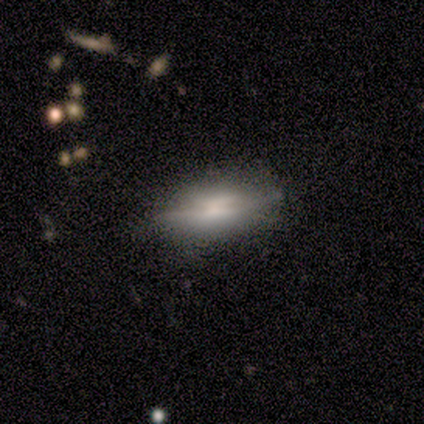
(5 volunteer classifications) This appears to be a featured or disk galaxy (60%) viewed edge-on (67%) with a boxy central bulge (50%, tied with rounded). Merging: none (80%).